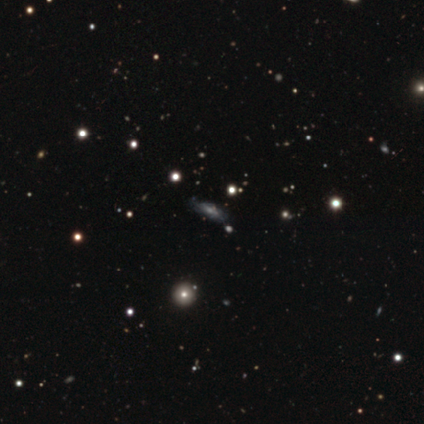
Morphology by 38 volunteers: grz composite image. It shows a featured or disk galaxy (53%) with no bar (73%), medium (50%) spiral arms (80%) and a small central bulge (40%). Merging: none (77%).